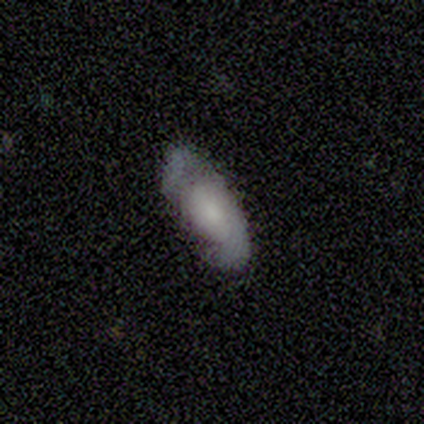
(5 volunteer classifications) A smooth galaxy with no disk features (60%) that is in between round and cigar-shaped (100%). Merging: none (100%).